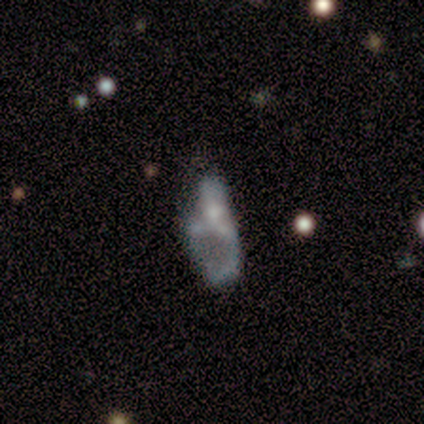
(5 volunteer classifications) A featured or disk galaxy (80%) with no bar (100%), no spiral arms (100%) and no central bulge (100%). Merging: minor disturbance (75%).